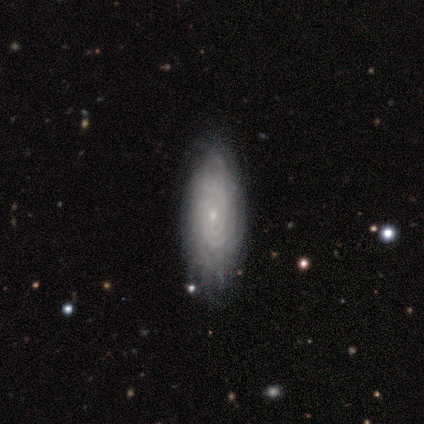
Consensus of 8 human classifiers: Smooth or featured: featured or disk — 88% (star or artifact — 12%)
Edge-on disk: no — 100%
Bar: no — 71% (weak — 29%)
Spiral arms: yes — 86% (no — 14%)
Spiral winding: tight — 83% (medium — 17%)
Spiral arm count: 2 — 33% (tied with can't tell — 33%)
Bulge size: small — 86% (moderate — 14%)
Merging: none — 100%